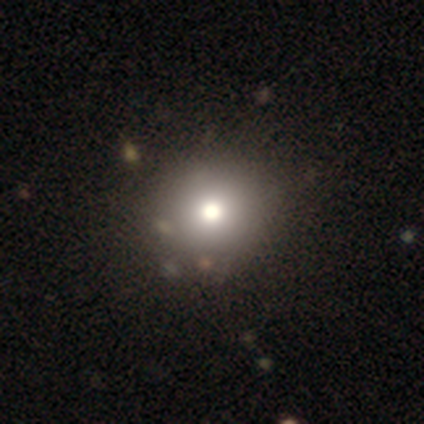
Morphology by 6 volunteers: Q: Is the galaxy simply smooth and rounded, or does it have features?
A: smooth — 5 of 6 (83%).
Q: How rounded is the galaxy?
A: round — 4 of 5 (80%).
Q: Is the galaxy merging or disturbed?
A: none — 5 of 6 (83%).